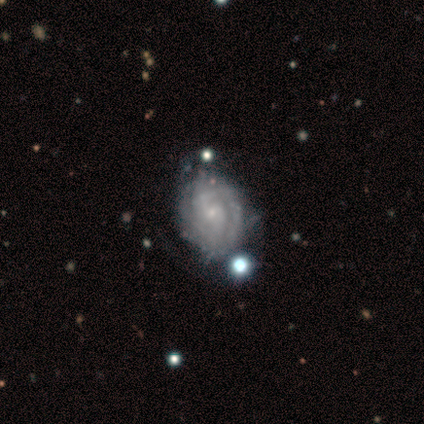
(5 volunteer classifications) Smooth or featured? featured or disk (100%)
Edge-on disk? no (100%)
Bar? weak (60%)
Spiral arms? yes (100%)
Spiral winding? tight (80%)
Spiral arm count? 2 (40%, tied with 3)
Bulge size? small (100%)
Merging? none (60%)